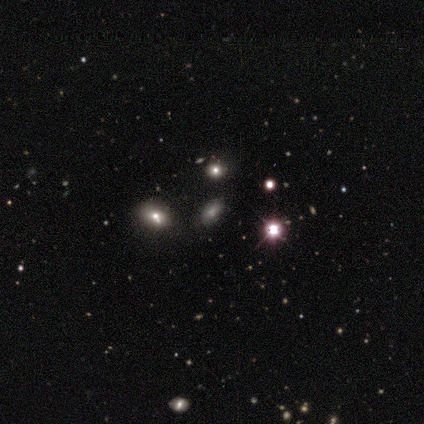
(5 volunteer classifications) Smooth or featured?
  - smooth: 40% * (tied)
  - star or artifact: 40% * (tied)
  - featured or disk: 20%
How rounded?
  - in between: 100% *
  - round: 0%
  - cigar-shaped: 0%
Merging?
  - none: 100% *
  - minor disturbance: 0%
  - major disturbance: 0%
  - merger: 0%